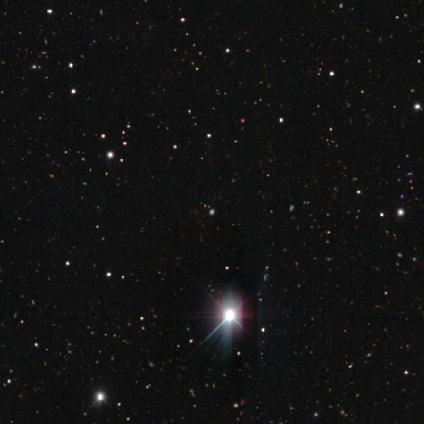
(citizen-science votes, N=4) Smooth or featured?
  - star or artifact: 100% *
  - smooth: 0%
  - featured or disk: 0%